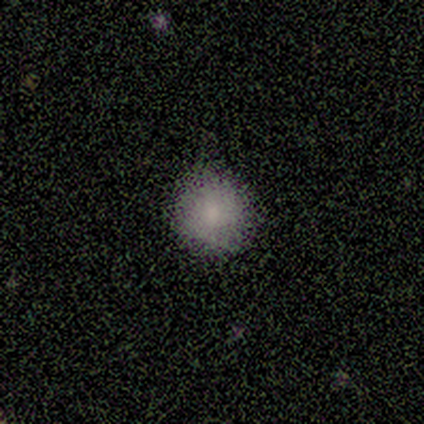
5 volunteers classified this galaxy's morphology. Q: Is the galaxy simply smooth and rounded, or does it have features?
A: smooth — 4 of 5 (80%).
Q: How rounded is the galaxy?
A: round — 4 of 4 (100%).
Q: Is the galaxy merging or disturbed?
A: none — 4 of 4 (100%).